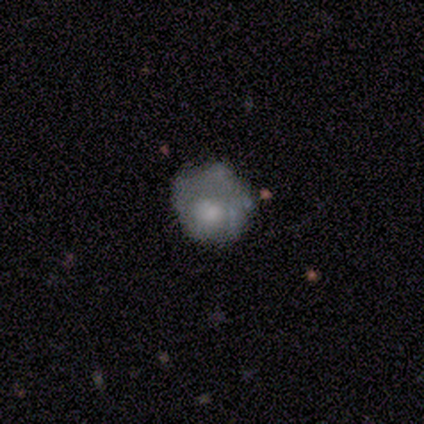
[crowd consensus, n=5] smooth-or-featured: smooth: 80% | star or artifact: 20% | featured or disk: 0%
  how-rounded: round: 75% | in between: 25% | cigar-shaped: 0%
  merging: none: 50% | minor disturbance: 25% | major disturbance: 25% | merger: 0%